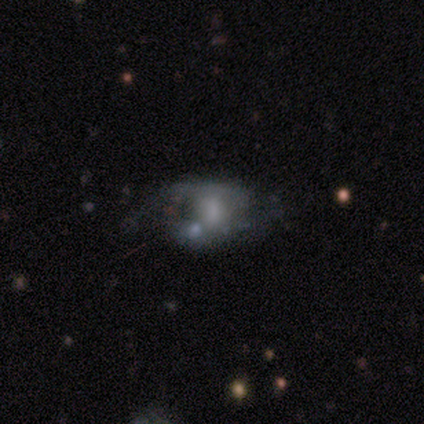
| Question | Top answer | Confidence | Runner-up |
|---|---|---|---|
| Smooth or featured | featured or disk | 67% | smooth (33%) |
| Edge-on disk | no | 100% | — |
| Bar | no | 75% | weak (25%) |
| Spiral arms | no | 100% | — |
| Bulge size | small | 50% | moderate (25%) |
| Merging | major disturbance | 50% | merger (33%) |